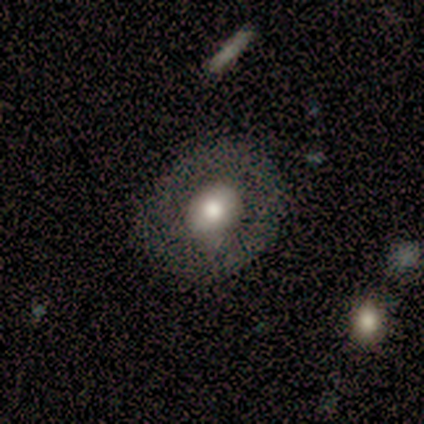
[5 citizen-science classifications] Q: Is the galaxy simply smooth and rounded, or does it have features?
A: featured or disk — 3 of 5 (60%).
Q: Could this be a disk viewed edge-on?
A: no — 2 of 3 (67%).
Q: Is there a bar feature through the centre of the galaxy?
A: no — 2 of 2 (100%).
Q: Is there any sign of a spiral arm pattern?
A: yes — 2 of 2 (100%).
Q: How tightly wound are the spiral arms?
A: tight — 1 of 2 (50%, tied with loose).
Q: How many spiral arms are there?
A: can't tell — 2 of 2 (100%).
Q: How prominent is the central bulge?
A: large — 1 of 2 (50%, tied with moderate).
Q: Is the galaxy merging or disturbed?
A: none — 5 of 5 (100%).